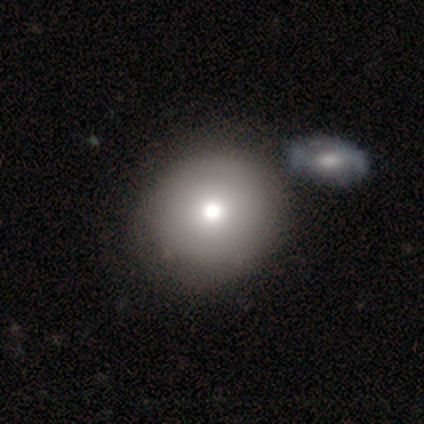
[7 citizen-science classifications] Smooth or featured? 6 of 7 (86%) said smooth. How rounded? 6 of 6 (100%) said round. Merging? 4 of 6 (67%) said none.